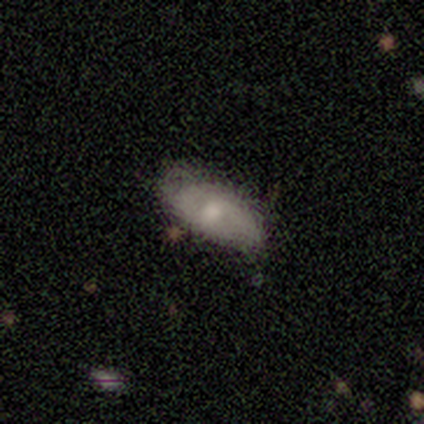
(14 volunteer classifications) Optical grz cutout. It shows a smooth galaxy with no disk features (57%) that is in between round and cigar-shaped (75%). Merging: none (64%).